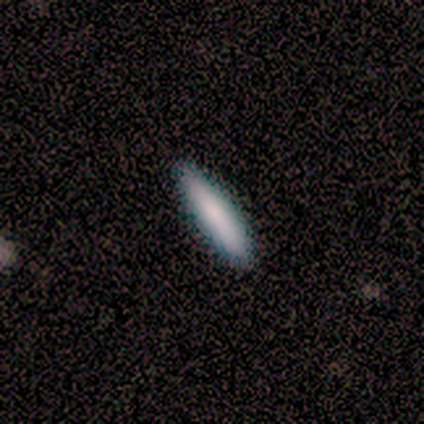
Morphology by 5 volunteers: This is clearly a smooth galaxy (80%). How rounded: clearly cigar-shaped (100%). Merging: clearly none (80%).